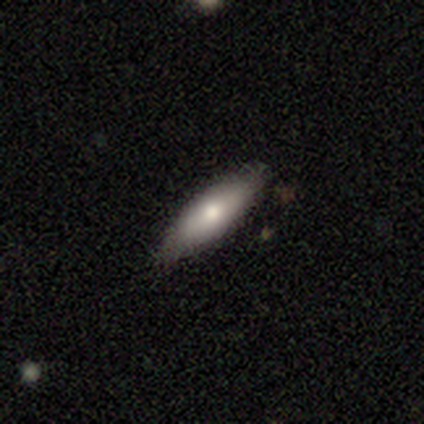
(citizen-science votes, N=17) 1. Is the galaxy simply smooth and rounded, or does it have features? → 65% smooth, 35% featured or disk, 0% star or artifact.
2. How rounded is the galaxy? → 55% cigar-shaped, 45% in between, 0% round.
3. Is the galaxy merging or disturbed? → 76% none, 18% minor disturbance, 6% major disturbance, 0% merger.